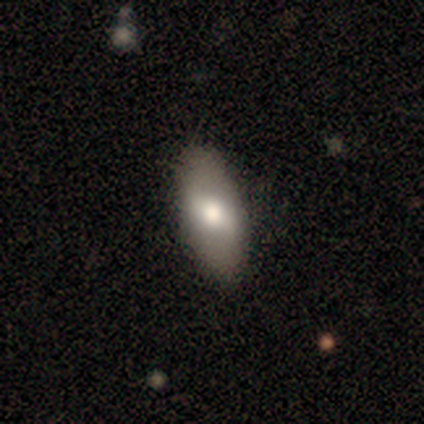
A smooth galaxy with no disk features (61%) that is in between round and cigar-shaped (91%). Merging: none (79%).